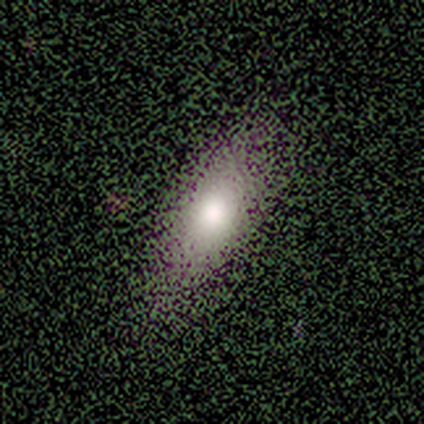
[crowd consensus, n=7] Morphology: type=smooth (57%); roundness=in between (100%); merging=none (83%).